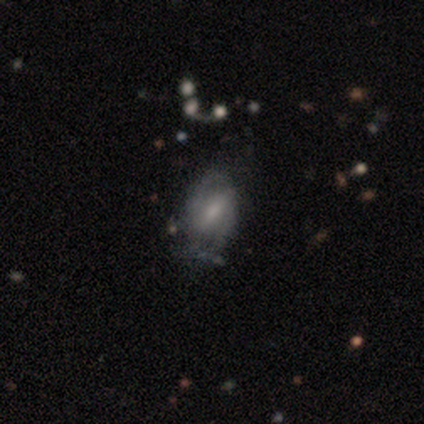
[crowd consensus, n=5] Q: Smooth or featured?
A: smooth (40%); tied with: featured or disk (40%)
Q: How rounded?
A: in between (100%)
Q: Merging?
A: none (100%)